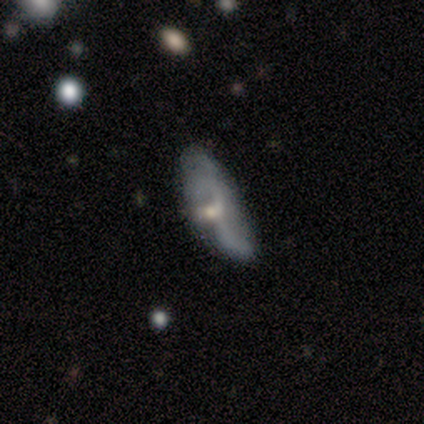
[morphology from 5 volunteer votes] Volunteers were most divided on "spiral arm count" (2-way tie): 3: 50%, can't tell: 50%, 1: 0%, 2: 0%, 4: 0%, more than 4: 0%. More confident: edge-on disk — no (100%); bar — no (100%); spiral winding — loose (100%); bulge size — small (100%); spiral arms — yes (67%); smooth or featured — featured or disk (60%); merging — major disturbance (60%).